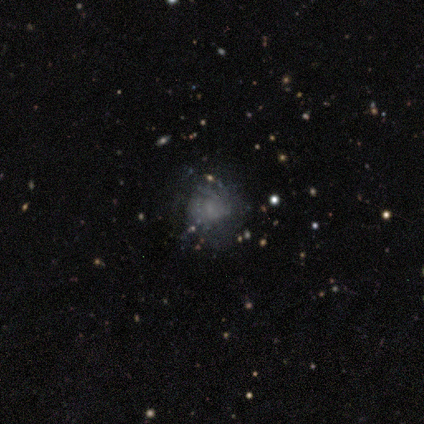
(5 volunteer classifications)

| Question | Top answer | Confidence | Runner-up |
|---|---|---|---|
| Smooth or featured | featured or disk | 60% | smooth (20%) |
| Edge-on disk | no | 100% | — |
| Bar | no | 100% | — |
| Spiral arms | no | 67% | yes (33%) |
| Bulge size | none | 67% | dominant (33%) |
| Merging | none | 75% | major disturbance (25%) |